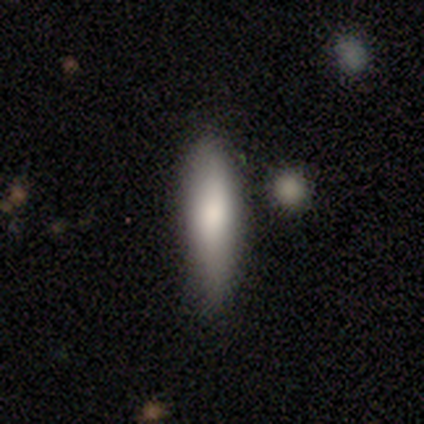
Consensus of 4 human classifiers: A smooth galaxy with no disk features (50%, tied with featured or disk) that is cigar-shaped (100%).

Vote fractions:
- Smooth or featured? smooth: 50% (tied) / featured or disk: 50% (tied) / star or artifact: 0%
- How rounded? cigar-shaped: 100% / round: 0% / in between: 0%
- Merging? none: 75% / minor disturbance: 25% / major disturbance: 0% / merger: 0%